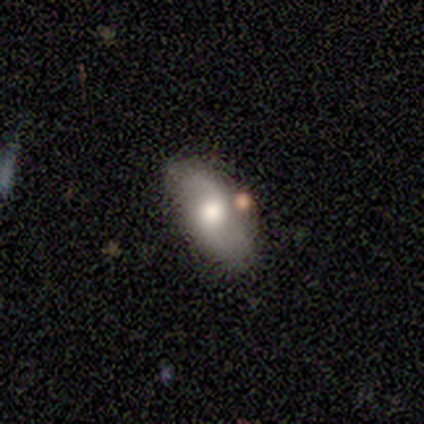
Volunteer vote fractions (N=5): smooth_or_featured: smooth (p=0.60) [alt: featured or disk p=0.40]
how_rounded: in between (p=1.00)
merging: none (p=0.60) [alt: minor disturbance p=0.20]